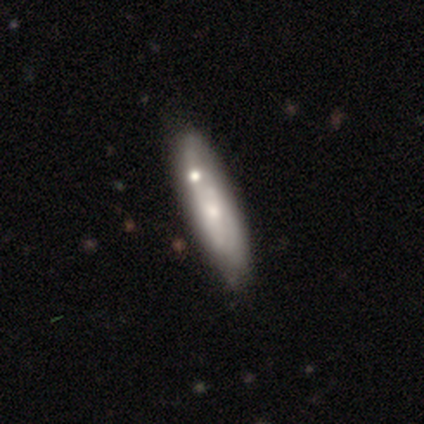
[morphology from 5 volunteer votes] A smooth galaxy with no disk features (40%, tied with featured or disk) that is in between round and cigar-shaped (50%, tied with cigar-shaped). Merging: minor disturbance (100%).